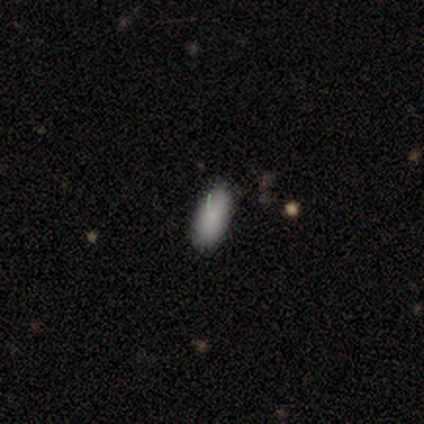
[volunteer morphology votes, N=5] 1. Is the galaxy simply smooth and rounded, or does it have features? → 80% smooth, 20% star or artifact, 0% featured or disk.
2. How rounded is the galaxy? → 75% in between, 25% cigar-shaped, 0% round.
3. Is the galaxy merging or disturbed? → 50% none (tied), 50% minor disturbance (tied), 0% major disturbance, 0% merger.